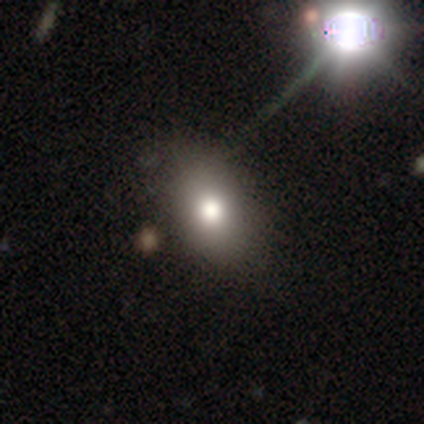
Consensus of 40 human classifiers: Smooth or featured?
  - smooth: 75% *
  - featured or disk: 15%
  - star or artifact: 10%
How rounded?
  - in between: 87% *
  - round: 13%
  - cigar-shaped: 0%
Merging?
  - none: 56% *
  - minor disturbance: 6%
  - major disturbance: 3%
  - merger: 3%